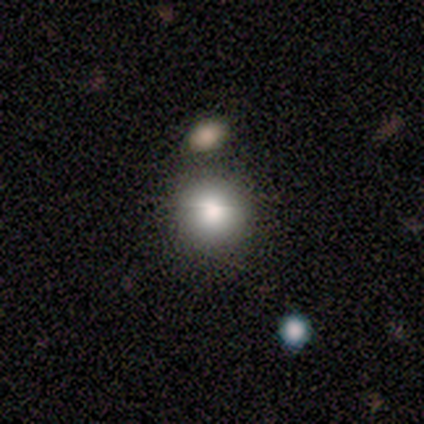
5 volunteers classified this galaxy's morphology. Smooth or featured: smooth — 100%
How rounded: round — 100%
Merging: none — 80% (major disturbance — 20%)